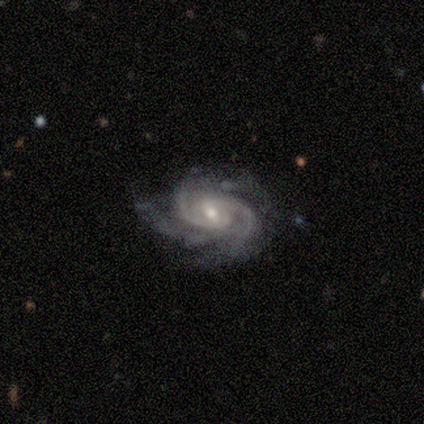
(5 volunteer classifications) Smooth or featured: featured or disk — 100%
Edge-on disk: no — 100%
Bar: no — 60% (strong — 20%)
Spiral arms: yes — 100%
Spiral winding: tight — 60% (medium — 40%)
Spiral arm count: 2 — 80% (3 — 20%)
Bulge size: small — 60% (moderate — 40%)
Merging: none — 60% (major disturbance — 40%)